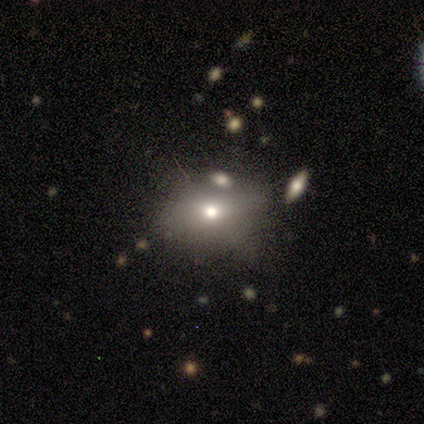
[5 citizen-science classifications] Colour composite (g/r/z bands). It shows a smooth galaxy with no disk features (80%) that is in between round and cigar-shaped (50%). Merging: merger (60%).